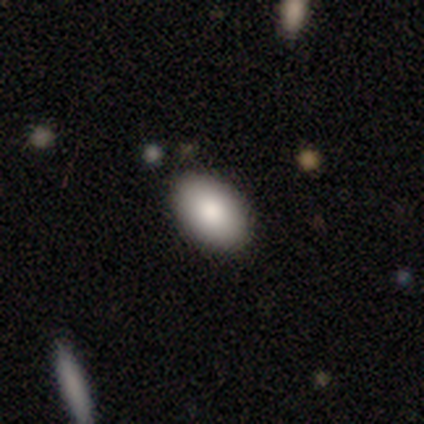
Smooth or featured? smooth (100%)
How rounded? in between (87%)
Merging? none (80%)